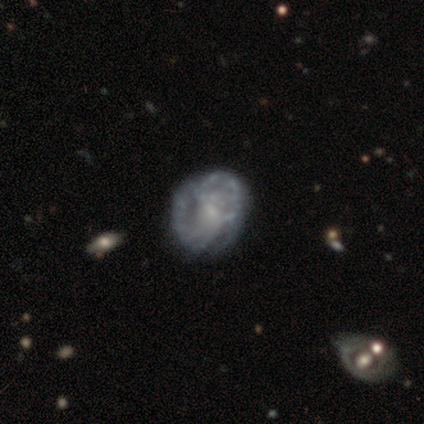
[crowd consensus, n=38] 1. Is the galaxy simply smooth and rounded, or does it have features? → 79% featured or disk, 13% smooth, 8% star or artifact.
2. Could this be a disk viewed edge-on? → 97% no, 3% yes.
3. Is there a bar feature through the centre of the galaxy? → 55% no, 38% weak, 7% strong.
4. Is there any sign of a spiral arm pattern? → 52% no, 48% yes.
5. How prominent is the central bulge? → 52% small, 34% none, 14% moderate, 0% dominant, 0% large.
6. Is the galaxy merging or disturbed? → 46% none, 29% minor disturbance, 20% major disturbance, 6% merger.